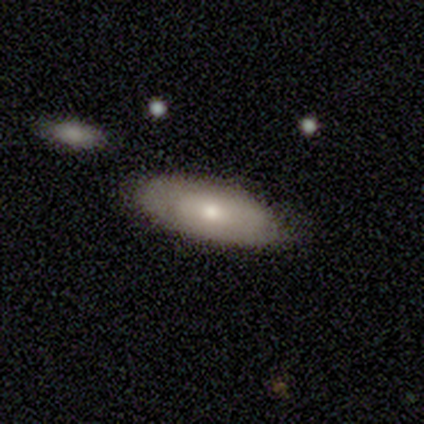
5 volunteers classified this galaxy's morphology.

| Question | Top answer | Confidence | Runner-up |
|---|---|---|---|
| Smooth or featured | smooth | 80% | featured or disk (20%) |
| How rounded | in between | 75% | cigar-shaped (25%) |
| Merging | none | 80% | minor disturbance (20%) |